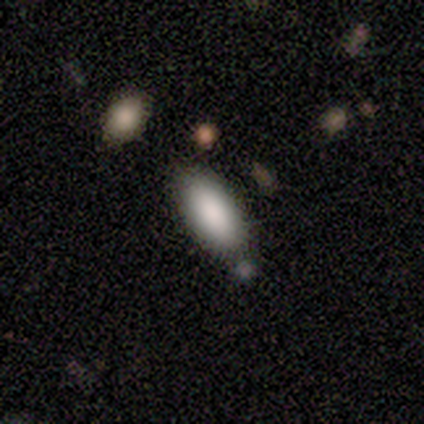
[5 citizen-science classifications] A smooth galaxy with no disk features (100%) that is in between round and cigar-shaped (100%). Merging: none (80%).